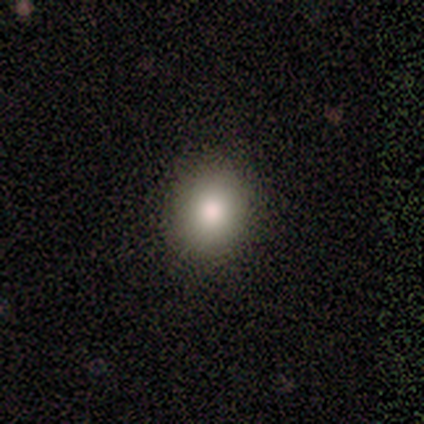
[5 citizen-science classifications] smooth_or_featured: smooth (p=0.60) [alt: star or artifact p=0.40]
how_rounded: in between (p=0.67) [alt: round p=0.33]
merging: none (p=1.00)